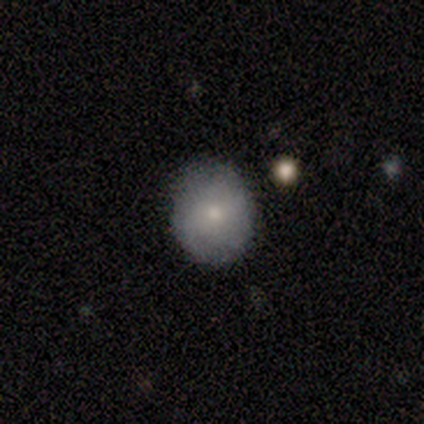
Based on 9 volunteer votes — This is possibly a smooth galaxy (56%). How rounded: likely round (60%). Merging: likely none (78%).